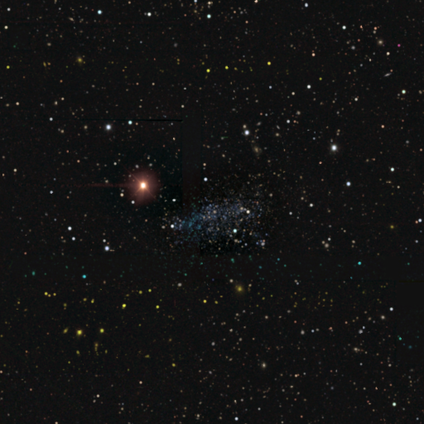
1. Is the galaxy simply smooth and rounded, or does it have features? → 60% star or artifact, 40% featured or disk, 0% smooth.